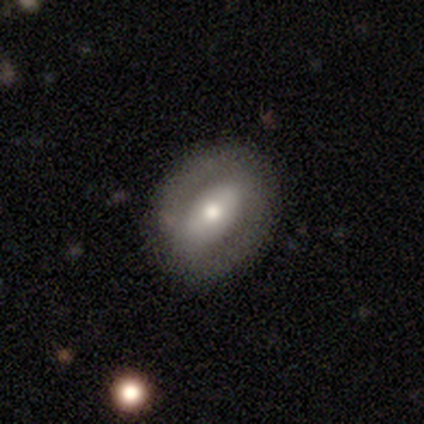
Smooth or featured?
  - featured or disk: 100% *
  - smooth: 0%
  - star or artifact: 0%
Edge-on disk?
  - no: 100% *
  - yes: 0%
Bar?
  - weak: 60% *
  - strong: 20%
  - no: 20%
Spiral arms?
  - no: 80% *
  - yes: 20%
Bulge size?
  - moderate: 60% *
  - large: 20%
  - small: 20%
  - dominant: 0%
  - none: 0%
Merging?
  - none: 100% *
  - minor disturbance: 0%
  - major disturbance: 0%
  - merger: 0%